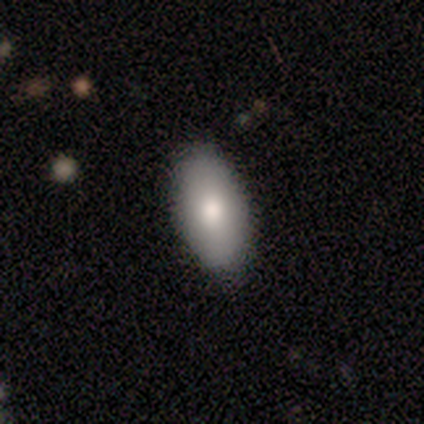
Smooth or featured: smooth — 60% (featured or disk — 40%)
How rounded: in between — 100%
Merging: none — 100%